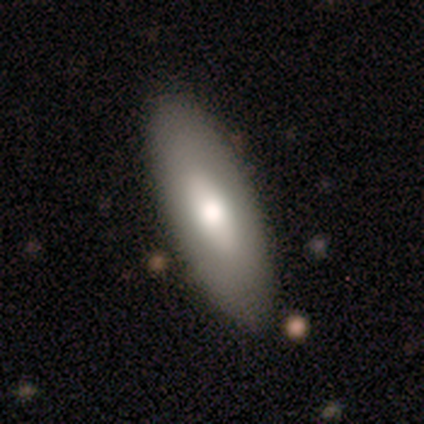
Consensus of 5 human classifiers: Smooth or featured? 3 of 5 (60%) said smooth. How rounded? 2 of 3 (67%) said cigar-shaped. Merging? 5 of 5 (100%) said none.